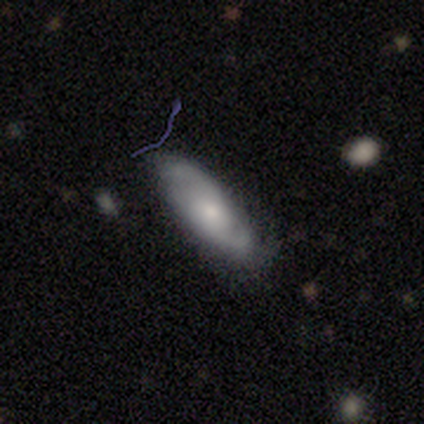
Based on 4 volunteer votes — Smooth or featured?
  - smooth: 75% *
  - featured or disk: 25%
  - star or artifact: 0%
How rounded?
  - cigar-shaped: 67% *
  - in between: 33%
  - round: 0%
Merging?
  - minor disturbance: 50% *
  - none: 25%
  - merger: 25%
  - major disturbance: 0%